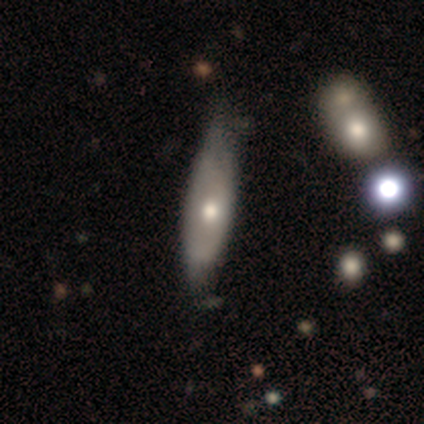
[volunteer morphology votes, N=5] Smooth or featured?
  - smooth: 60% *
  - featured or disk: 40%
  - star or artifact: 0%
How rounded?
  - in between: 67% *
  - cigar-shaped: 33%
  - round: 0%
Merging?
  - minor disturbance: 80% *
  - none: 20%
  - major disturbance: 0%
  - merger: 0%